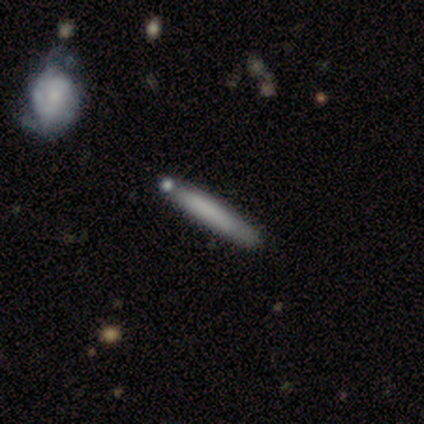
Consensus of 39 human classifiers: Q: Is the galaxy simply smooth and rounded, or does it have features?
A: smooth — 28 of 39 (72%).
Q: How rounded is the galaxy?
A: cigar-shaped — 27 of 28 (96%).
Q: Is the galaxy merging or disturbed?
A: none — 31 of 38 (82%).